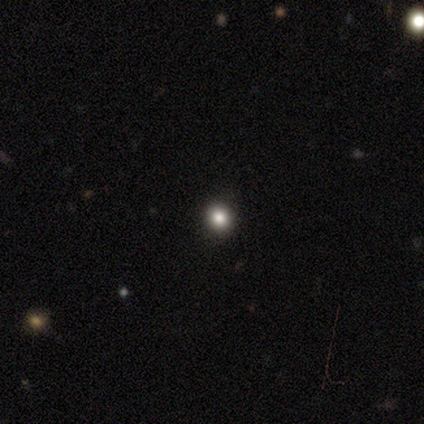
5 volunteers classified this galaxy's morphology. smooth-or-featured: smooth: 80% | star or artifact: 20% | featured or disk: 0%
  how-rounded: round: 100% | in between: 0% | cigar-shaped: 0%
  merging: none: 100% | minor disturbance: 0% | major disturbance: 0% | merger: 0%